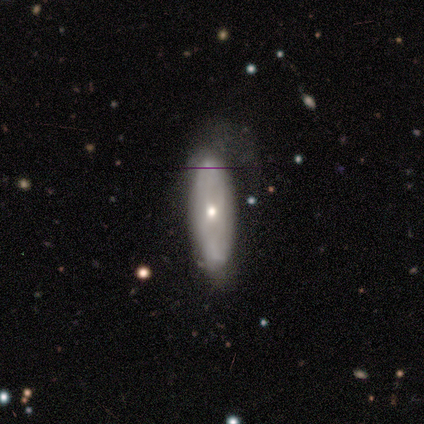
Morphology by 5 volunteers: smooth-or-featured: smooth: 60% | featured or disk: 40% | star or artifact: 0%
  how-rounded: round: 33% (tied) | in between: 33% (tied) | cigar-shaped: 33% (tied)
  merging: none: 40% (tied) | minor disturbance: 40% (tied) | major disturbance: 20% | merger: 0%